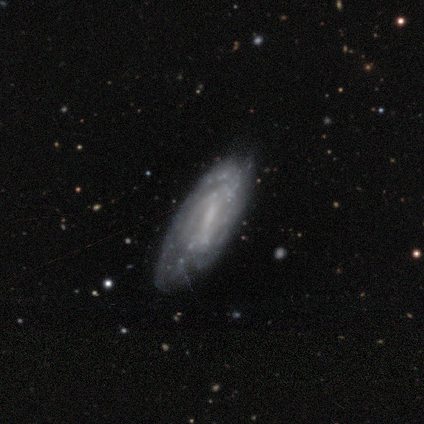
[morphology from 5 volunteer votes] type=featured or disk (80%); edge-on=no (100%); bar=strong (50%); spiral arms=yes (100%); winding=tight (50%); arm count=can't tell (50%); bulge=moderate (75%); merging=minor disturbance (75%).